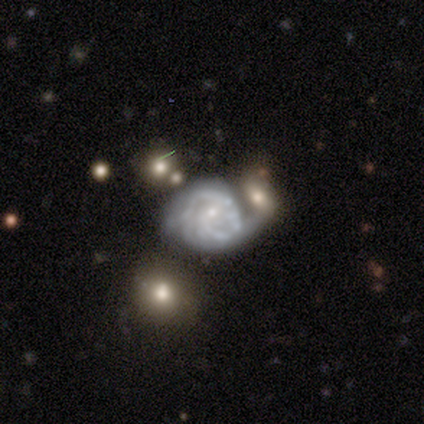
A featured or disk galaxy (75%) with no bar (53%), 2 (41%) medium (48%) spiral arms (90%) and a small central bulge (63%).

Vote fractions:
- Smooth or featured? featured or disk: 75% / smooth: 15% / star or artifact: 10%
- Edge-on disk? no: 100% / yes: 0%
- Bar? no: 53% / weak: 37% / strong: 10%
- Spiral arms? yes: 90% / no: 10%
- Spiral winding? medium: 48% / tight: 44% / loose: 7%
- Spiral arm count? 2: 41% / can't tell: 33% / 1: 7% / 3: 7% / 4: 7% / more than 4: 4%
- Bulge size? small: 63% / moderate: 23% / none: 10% / large: 3% / dominant: 0%
- Merging? merger: 44% / none: 19% / minor disturbance: 19% / major disturbance: 17%